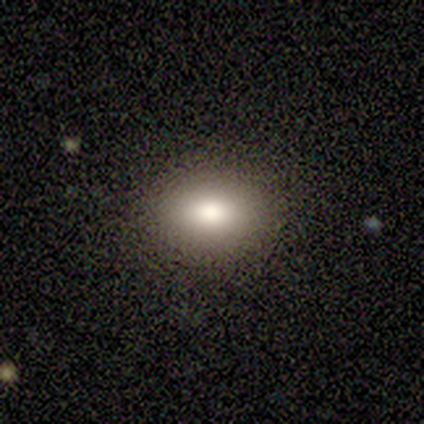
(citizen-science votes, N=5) Smooth or featured? smooth (60%)
How rounded? in between (100%)
Merging? none (100%)